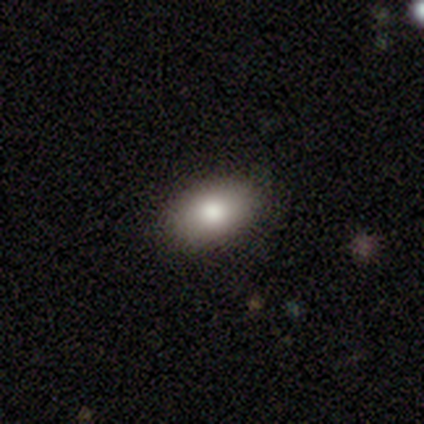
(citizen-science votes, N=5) smooth-or-featured: smooth: 100% | featured or disk: 0% | star or artifact: 0%
  how-rounded: in between: 80% | round: 20% | cigar-shaped: 0%
  merging: none: 100% | minor disturbance: 0% | major disturbance: 0% | merger: 0%